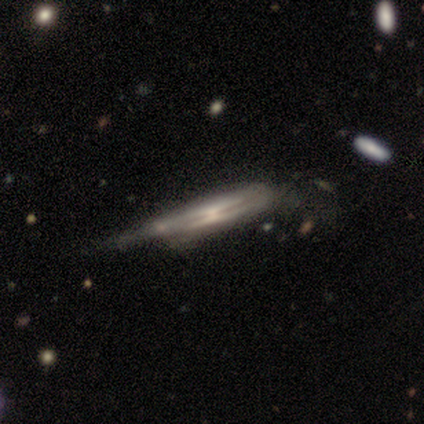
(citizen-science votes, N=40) Smooth or featured: featured or disk — 80% (smooth — 18%)
Edge-on disk: yes — 88% (no — 12%)
Edge-on bulge: none — 39% (rounded — 36%)
Merging: minor disturbance — 44% (major disturbance — 28%)